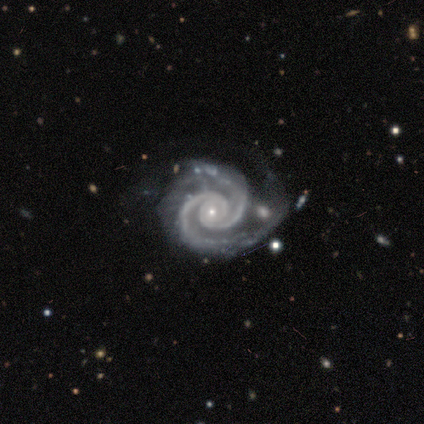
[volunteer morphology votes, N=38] Volunteers were most divided on "bar": no: 59%, weak: 27%, strong: 14%. More confident: edge-on disk — no (100%); spiral arms — yes (100%); smooth or featured — featured or disk (97%); bulge size — small (86%); spiral winding — tight (81%); spiral arm count — 2 (81%); merging — none (61%).